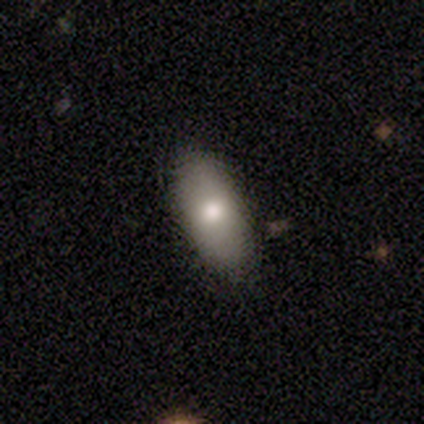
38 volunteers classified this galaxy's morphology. type=smooth (79%); roundness=in between (77%); merging=none (86%).